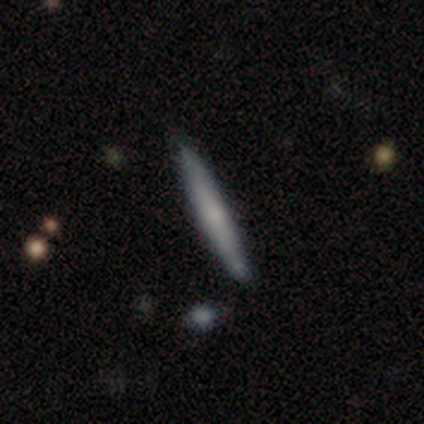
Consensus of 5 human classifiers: smooth 80%, featured or disk 20%, star or artifact 0%. Down the decision tree: how rounded — cigar-shaped (100%); merging — none (80%).